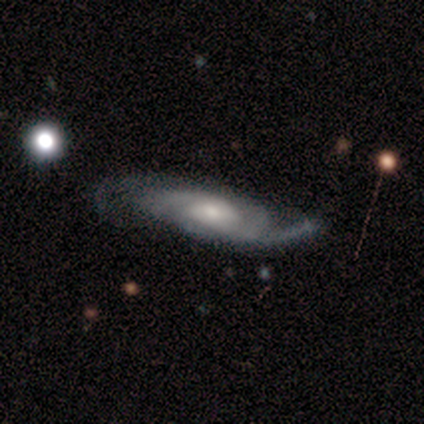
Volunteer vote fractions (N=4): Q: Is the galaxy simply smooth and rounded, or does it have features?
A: featured or disk — 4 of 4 (100%).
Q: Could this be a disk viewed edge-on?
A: no — 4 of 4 (100%).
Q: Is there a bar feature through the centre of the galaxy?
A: no — 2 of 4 (50%).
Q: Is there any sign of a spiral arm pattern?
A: yes — 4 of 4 (100%).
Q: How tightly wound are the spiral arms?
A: tight — 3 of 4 (75%).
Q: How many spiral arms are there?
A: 2 — 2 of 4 (50%, tied with can't tell).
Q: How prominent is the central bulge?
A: moderate — 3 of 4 (75%).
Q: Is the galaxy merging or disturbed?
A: none — 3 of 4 (75%).